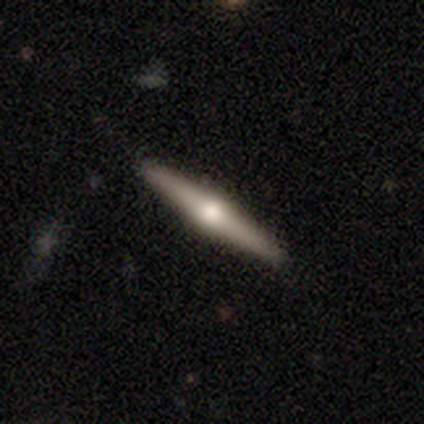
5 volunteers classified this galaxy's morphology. smooth_or_featured: featured or disk (p=1.00)
disk_edge_on: yes (p=1.00)
edge_on_bulge: rounded (p=1.00)
merging: none (p=1.00)